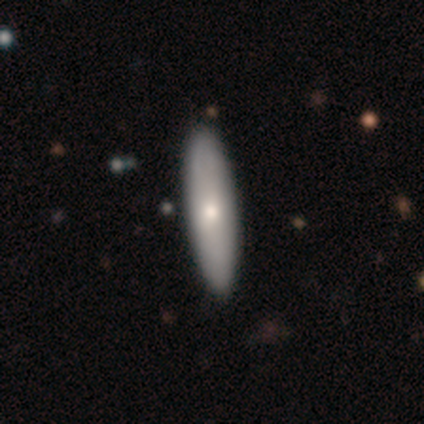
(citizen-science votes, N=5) Volunteers were most divided on "smooth or featured": smooth: 60%, featured or disk: 40%, star or artifact: 0%. More confident: merging — none (100%); how rounded — cigar-shaped (67%).